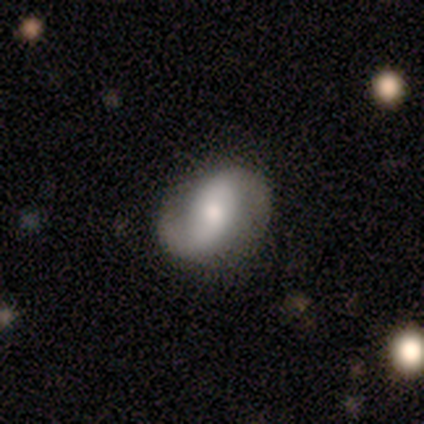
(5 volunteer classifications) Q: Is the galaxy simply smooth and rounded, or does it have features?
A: featured or disk — 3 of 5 (60%).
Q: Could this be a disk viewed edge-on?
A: no — 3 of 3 (100%).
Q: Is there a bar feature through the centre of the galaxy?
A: no — 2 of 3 (67%).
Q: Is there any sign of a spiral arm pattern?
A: yes — 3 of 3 (100%).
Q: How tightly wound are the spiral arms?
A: medium — 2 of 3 (67%).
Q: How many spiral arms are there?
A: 2 — 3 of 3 (100%).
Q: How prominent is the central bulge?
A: small — 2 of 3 (67%).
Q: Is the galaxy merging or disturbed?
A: none — 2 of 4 (50%, tied with minor disturbance).